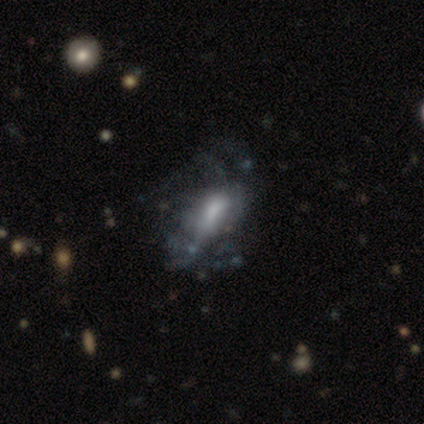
Q: Smooth or featured?
A: featured or disk (60%); runner-up: smooth (40%)
Q: Edge-on disk?
A: no (100%)
Q: Bar?
A: no (100%)
Q: Spiral arms?
A: no (67%); runner-up: yes (33%)
Q: Bulge size?
A: large (33%); tied with: moderate (33%); none (33%)
Q: Merging?
A: major disturbance (60%); runner-up: none (20%)